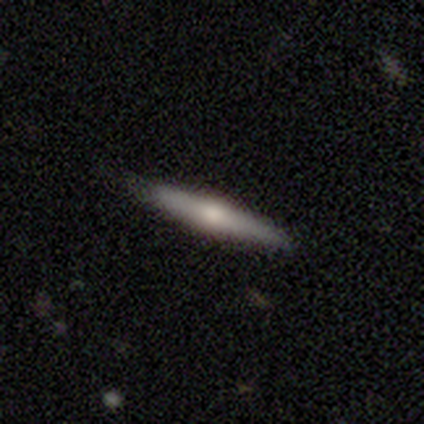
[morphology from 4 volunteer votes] Smooth or featured: smooth — 75% (featured or disk — 25%)
How rounded: cigar-shaped — 100%
Merging: none — 75% (minor disturbance — 25%)